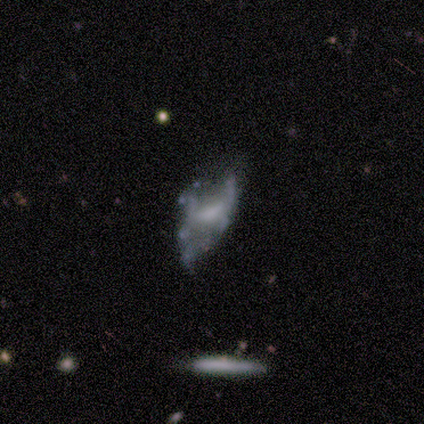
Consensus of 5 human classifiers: featured or disk 100%, smooth 0%, star or artifact 0%. Down the decision tree: edge-on disk — no (80%); bar — weak (50%, tied with no); spiral arms — no (75%); bulge size — moderate (75%); merging — minor disturbance (60%).